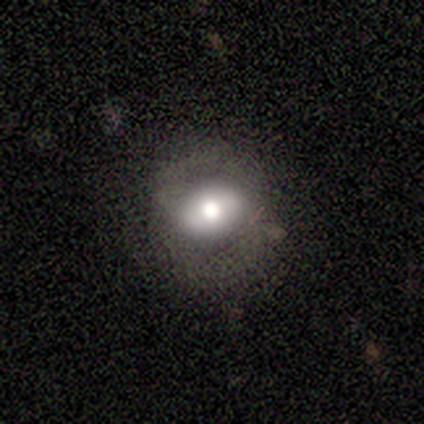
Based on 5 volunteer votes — smooth 60%, featured or disk 40%, star or artifact 0%. Down the decision tree: how rounded — round (67%); merging — none (60%).